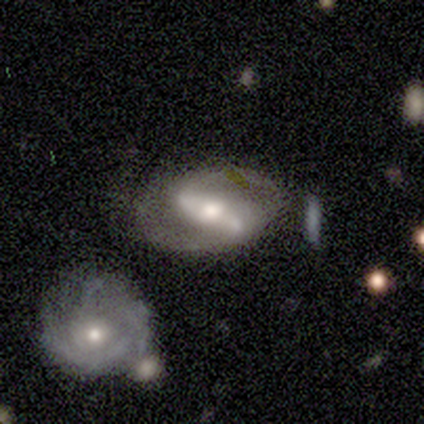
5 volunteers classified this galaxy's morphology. Volunteers were most divided on "merging": none: 50%, minor disturbance: 25%, major disturbance: 25%, merger: 0%. More confident: edge-on disk — no (100%); bar — strong (100%); spiral arms — yes (100%); spiral arm count — 2 (100%); spiral winding — medium (67%); bulge size — moderate (67%); smooth or featured — featured or disk (60%).